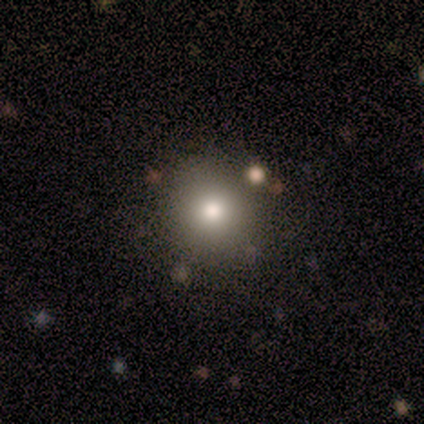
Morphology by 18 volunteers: smooth-or-featured: smooth: 78% | star or artifact: 22% | featured or disk: 0%
  how-rounded: round: 93% | in between: 7% | cigar-shaped: 0%
  merging: none: 86% | minor disturbance: 7% | major disturbance: 7% | merger: 0%